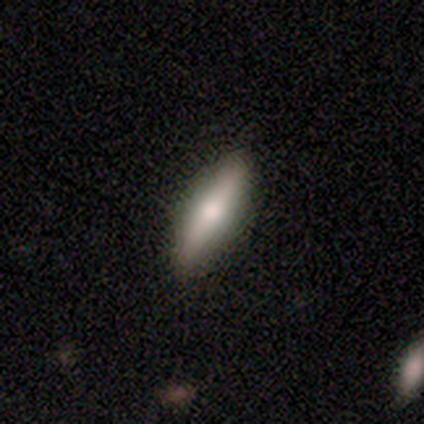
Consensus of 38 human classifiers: This appears to be a smooth galaxy with no disk features (58%) that is cigar-shaped (64%). Merging: none (97%).